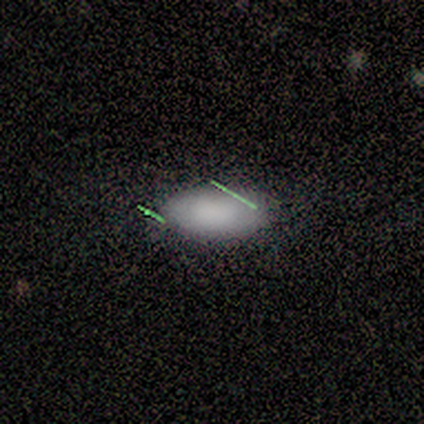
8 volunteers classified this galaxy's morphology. Smooth or featured? smooth (75%)
How rounded? in between (100%)
Merging? none (100%)